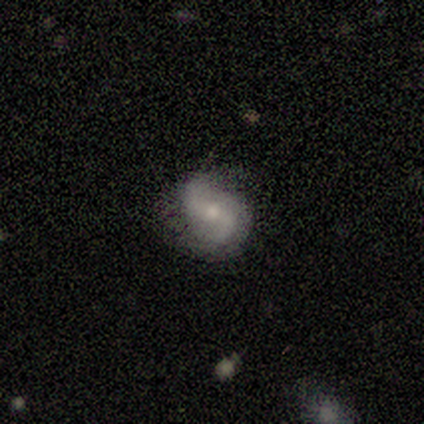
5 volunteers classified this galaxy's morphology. featured or disk 100%, smooth 0%, star or artifact 0%. Down the decision tree: edge-on disk — no (100%); bar — strong (40%, tied with weak); spiral arms — yes (100%); spiral arm count — 2 (100%); spiral winding — medium (60%); bulge size — small (80%); merging — none (100%).